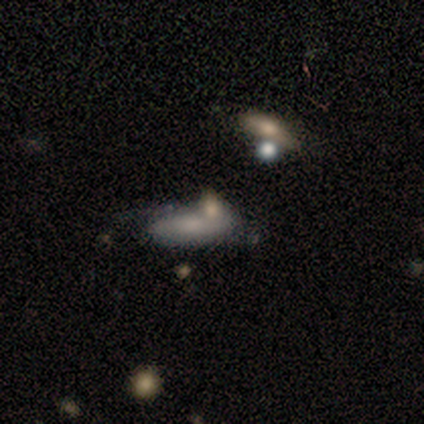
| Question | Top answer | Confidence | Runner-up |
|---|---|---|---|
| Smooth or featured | smooth | 50% | tied: featured or disk (50%) |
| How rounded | in between | 50% | tied: cigar-shaped (50%) |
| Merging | none | 75% | minor disturbance (25%) |